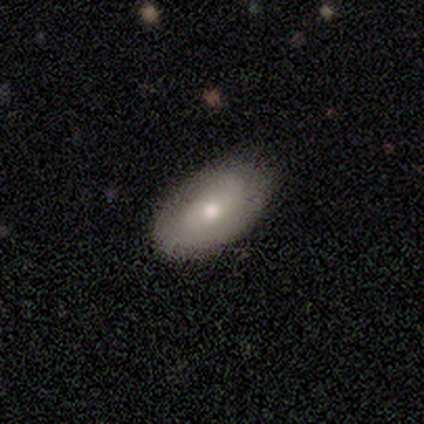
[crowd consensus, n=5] Morphology: type=featured or disk (80%); edge-on=no (100%); bar=weak (50%, tied with no); spiral arms=no (75%); bulge=moderate (50%); merging=none (60%).